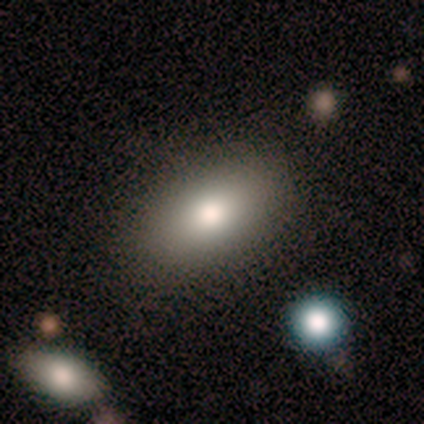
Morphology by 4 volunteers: A featured or disk galaxy (50%) with no bar (100%), no spiral arms (100%) and a large central bulge (50%, tied with none).

Vote fractions:
- Smooth or featured? featured or disk: 50% / smooth: 25% / star or artifact: 25%
- Edge-on disk? no: 100% / yes: 0%
- Bar? no: 100% / strong: 0% / weak: 0%
- Spiral arms? no: 100% / yes: 0%
- Bulge size? large: 50% (tied) / none: 50% (tied) / dominant: 0% / moderate: 0% / small: 0%
- Merging? none: 67% / minor disturbance: 33% / major disturbance: 0% / merger: 0%